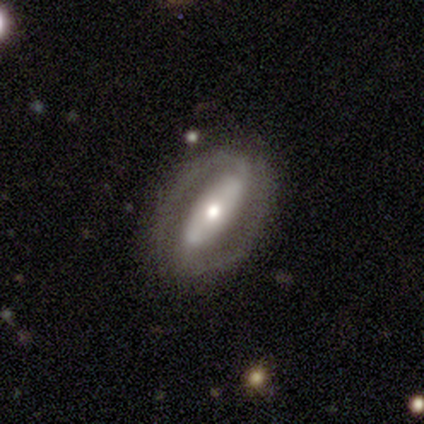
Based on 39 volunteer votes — A featured or disk galaxy (77%) with a strong bar (70%), 2 (95%) tight (50%) spiral arms (81%) and a moderate central bulge (56%). Merging: none (76%).